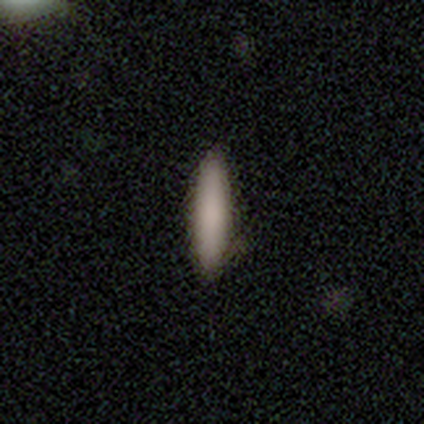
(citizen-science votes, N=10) Overall: smooth (90%). How rounded: cigar-shaped (78%). Merging: none (90%).